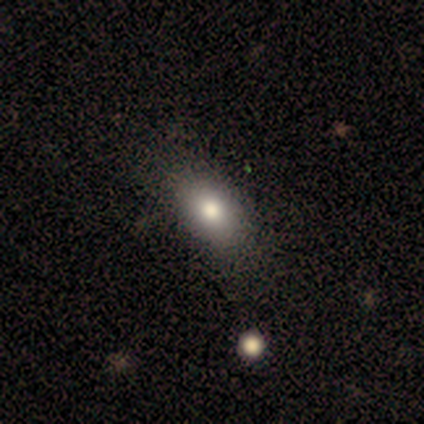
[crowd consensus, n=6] This is clearly a smooth galaxy (83%). How rounded: clearly in between (80%). Merging: possibly none (50%).